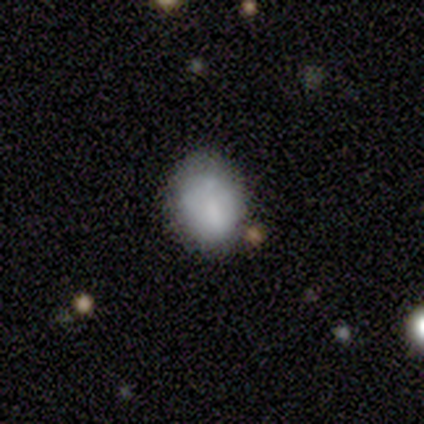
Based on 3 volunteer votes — smooth_or_featured: smooth (p=1.00)
how_rounded: round (p=0.67) [alt: in between p=0.33]
merging: none (p=1.00)